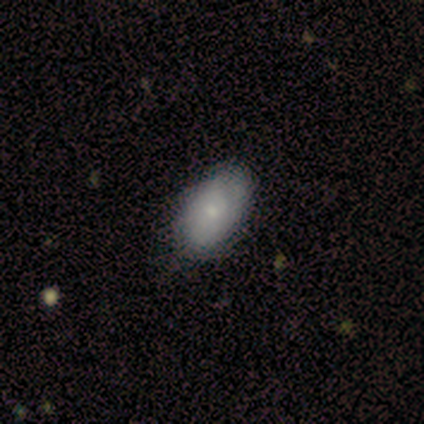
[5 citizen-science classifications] smooth-or-featured: smooth: 60% | featured or disk: 20% | star or artifact: 20%
  how-rounded: in between: 100% | round: 0% | cigar-shaped: 0%
  merging: none: 75% | minor disturbance: 25% | major disturbance: 0% | merger: 0%